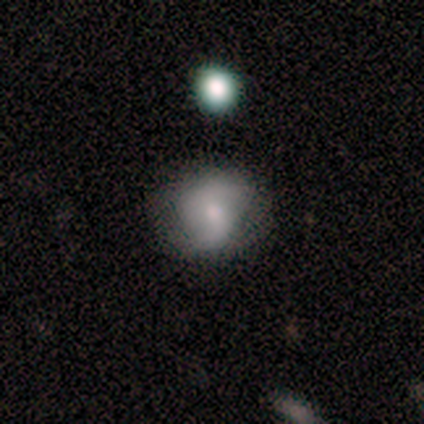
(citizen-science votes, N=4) Smooth or featured: smooth — 75% (featured or disk — 25%)
How rounded: round — 67% (in between — 33%)
Merging: none — 75% (minor disturbance — 25%)